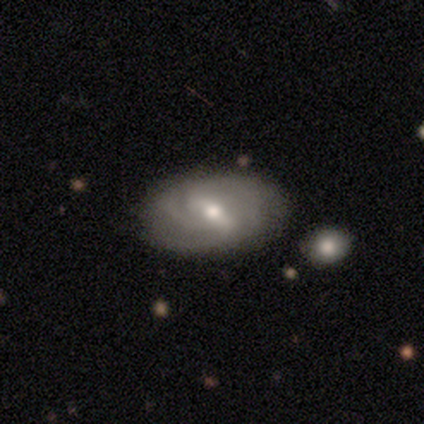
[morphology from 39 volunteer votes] Smooth or featured? featured or disk (82%)
Edge-on disk? no (94%)
Bar? strong (53%)
Spiral arms? yes (80%)
Spiral winding? tight (54%)
Spiral arm count? 3 (38%)
Bulge size? moderate (57%)
Merging? none (62%)